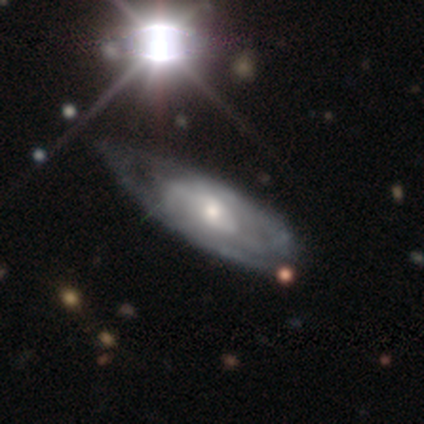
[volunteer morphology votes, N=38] This is clearly a featured or disk galaxy (97%). It is clearly not viewed edge-on (89%). Bar: likely no (73%). Spiral arm pattern: clearly yes (85%). Spiral arm count: likely can't tell (61%). Spiral winding: possibly medium (50%). Central bulge: possibly moderate (52%). Merging: marginally none (43%).